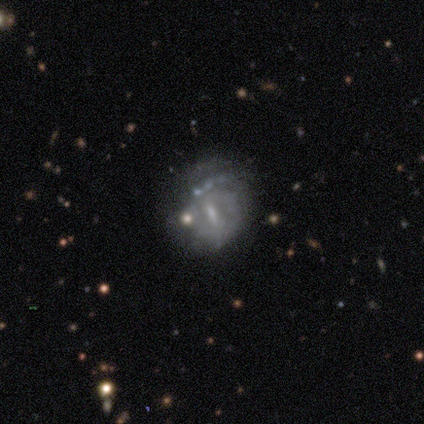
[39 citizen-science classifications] smooth_or_featured: featured or disk (p=0.74) [alt: smooth p=0.21]
disk_edge_on: no (p=1.00)
bar: weak (p=0.59) [alt: no p=0.24]
has_spiral_arms: no (p=0.62) [alt: yes p=0.38]
bulge_size: small (p=0.62) [alt: moderate p=0.21]
merging: none (p=0.43) [alt: major disturbance p=0.30]